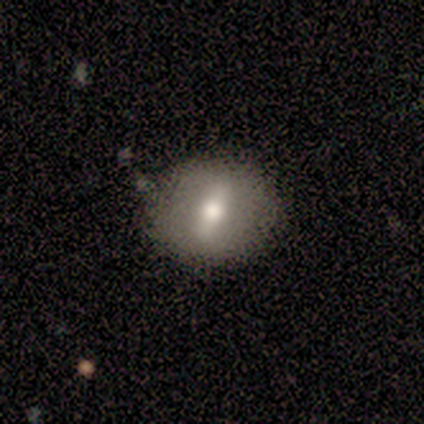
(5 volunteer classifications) A featured or disk galaxy (60%) with a weak bar (50%, tied with no), no spiral arms (100%) and a moderate central bulge (100%).

Vote fractions:
- Smooth or featured? featured or disk: 60% / smooth: 40% / star or artifact: 0%
- Edge-on disk? no: 67% / yes: 33%
- Bar? weak: 50% (tied) / no: 50% (tied) / strong: 0%
- Spiral arms? no: 100% / yes: 0%
- Bulge size? moderate: 100% / dominant: 0% / large: 0% / small: 0% / none: 0%
- Merging? none: 60% / minor disturbance: 20% / merger: 20% / major disturbance: 0%